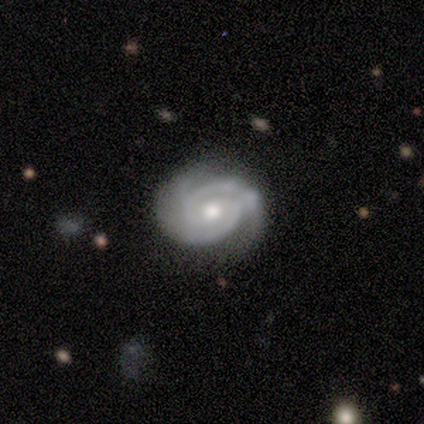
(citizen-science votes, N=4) A featured or disk galaxy (75%) viewed edge-on (67%) with a rounded central bulge (100%).

Vote fractions:
- Smooth or featured? featured or disk: 75% / smooth: 25% / star or artifact: 0%
- Edge-on disk? yes: 67% / no: 33%
- Edge-on bulge? rounded: 100% / boxy: 0% / none: 0%
- Merging? none: 100% / minor disturbance: 0% / major disturbance: 0% / merger: 0%